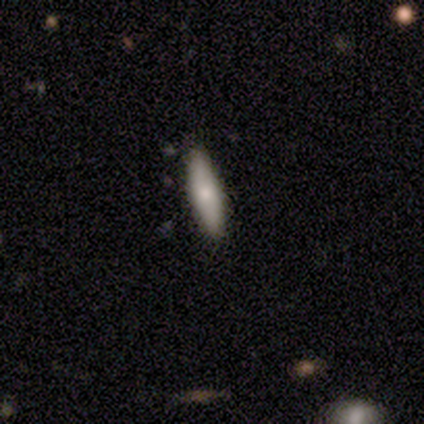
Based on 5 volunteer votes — smooth 80%, featured or disk 20%, star or artifact 0%. Down the decision tree: how rounded — in between (50%, tied with cigar-shaped); merging — none (100%).